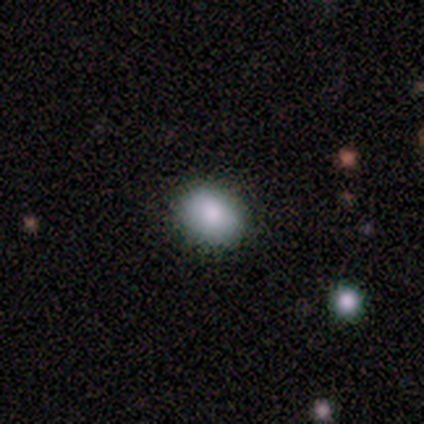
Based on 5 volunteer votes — Smooth or featured: smooth — 60% (featured or disk — 20%)
How rounded: round — 67% (in between — 33%)
Merging: none — 100%